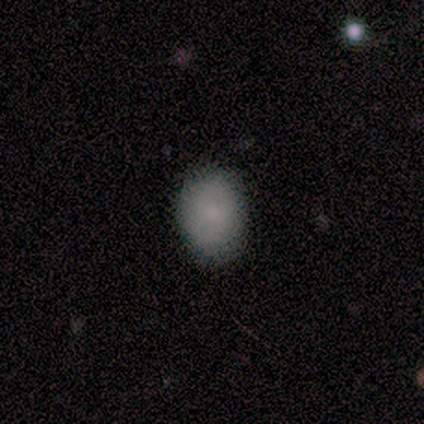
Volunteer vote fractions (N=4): Smooth or featured? 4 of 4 (100%) said smooth. How rounded? 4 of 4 (100%) said in between. Merging? 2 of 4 (50%, tied with minor disturbance) said none.